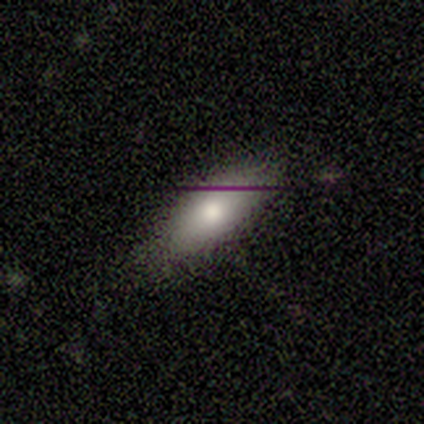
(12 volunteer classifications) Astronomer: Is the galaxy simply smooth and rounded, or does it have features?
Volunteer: smooth — 83%.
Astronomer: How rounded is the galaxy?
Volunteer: in between — 80%.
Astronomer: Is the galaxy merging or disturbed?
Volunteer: none — 75%.